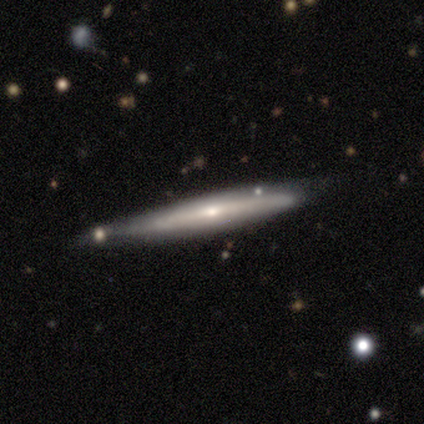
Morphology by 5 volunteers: smooth 60%, featured or disk 40%, star or artifact 0%. Down the decision tree: how rounded — cigar-shaped (100%); merging — none (60%).